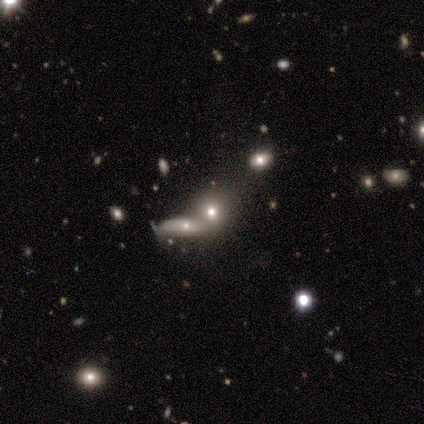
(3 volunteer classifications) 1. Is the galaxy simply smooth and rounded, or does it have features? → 67% smooth, 33% featured or disk, 0% star or artifact.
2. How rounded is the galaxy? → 50% round (tied), 50% in between (tied), 0% cigar-shaped.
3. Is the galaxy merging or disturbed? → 67% merger, 33% none, 0% minor disturbance, 0% major disturbance.